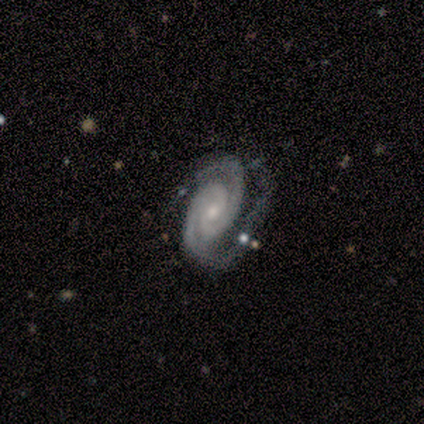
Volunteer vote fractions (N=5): Q: Smooth or featured?
A: featured or disk (80%); runner-up: smooth (20%)
Q: Edge-on disk?
A: no (100%)
Q: Bar?
A: weak (75%); runner-up: no (25%)
Q: Spiral arms?
A: yes (100%)
Q: Spiral winding?
A: tight (50%); tied with: medium (50%)
Q: Spiral arm count?
A: 2 (100%)
Q: Bulge size?
A: moderate (50%); tied with: small (50%)
Q: Merging?
A: none (40%); tied with: minor disturbance (40%)